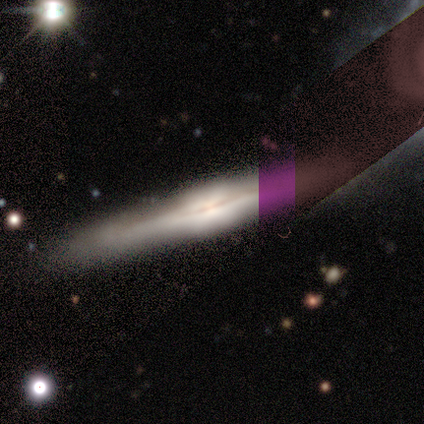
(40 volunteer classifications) Smooth or featured: featured or disk — 70% (smooth — 15%)
Edge-on disk: yes — 96% (no — 4%)
Edge-on bulge: boxy — 44% (rounded — 30%)
Merging: none — 76% (minor disturbance — 18%)